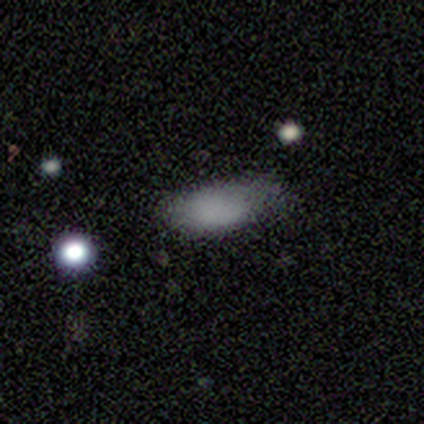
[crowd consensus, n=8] Morphology: type=smooth (75%); roundness=in between (100%); merging=none (57%).